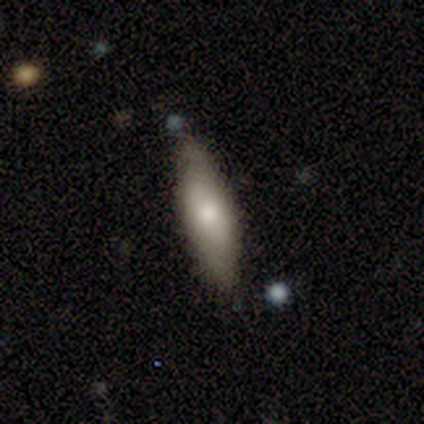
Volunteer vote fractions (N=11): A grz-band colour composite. It shows a smooth galaxy with no disk features (55%) that is in between round and cigar-shaped (50%, tied with cigar-shaped). Merging: none (82%).